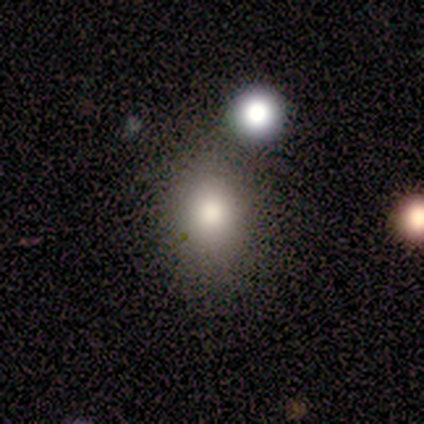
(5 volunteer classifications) A smooth galaxy with no disk features (100%) that is in between round and cigar-shaped (60%).

Vote fractions:
- Smooth or featured? smooth: 100% / featured or disk: 0% / star or artifact: 0%
- How rounded? in between: 60% / round: 40% / cigar-shaped: 0%
- Merging? none: 80% / merger: 20% / minor disturbance: 0% / major disturbance: 0%